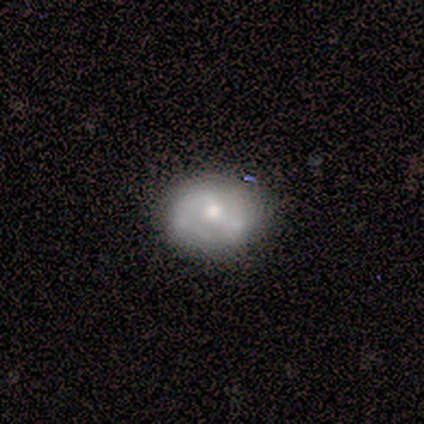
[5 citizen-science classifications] A featured or disk galaxy (60%) with no bar (67%), 2 (67%) medium (100%) spiral arms (100%) and a moderate central bulge (100%). Merging: none (40%).